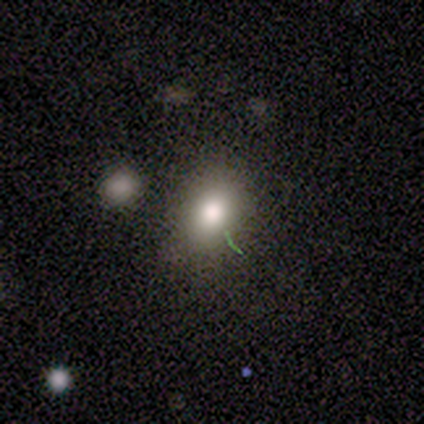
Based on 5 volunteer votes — This appears to be a smooth galaxy with no disk features (100%) that is round (60%). Merging: none (40%, tied with minor disturbance).